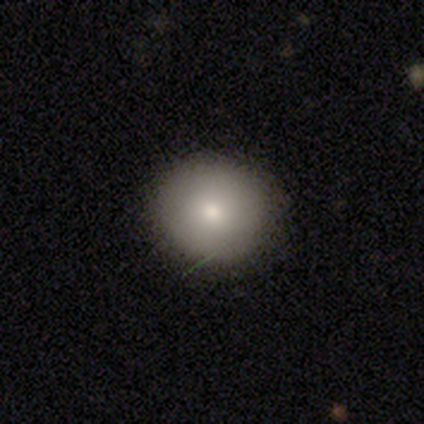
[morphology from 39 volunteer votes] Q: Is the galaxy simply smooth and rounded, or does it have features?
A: smooth — 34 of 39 (87%).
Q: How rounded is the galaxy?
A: round — 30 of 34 (88%).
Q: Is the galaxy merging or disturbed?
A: none — 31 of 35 (89%).